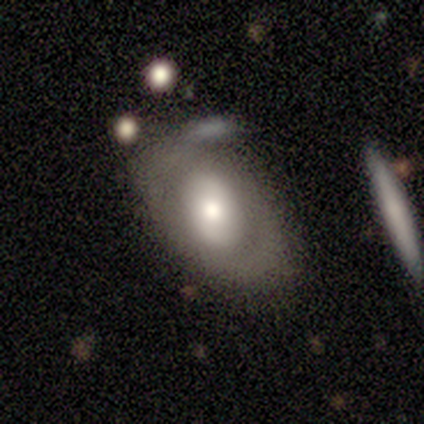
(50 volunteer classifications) A featured or disk galaxy (48%) with no bar (41%), no spiral arms (59%) and a moderate central bulge (45%).

Vote fractions:
- Smooth or featured? featured or disk: 48% / smooth: 46% / star or artifact: 6%
- Edge-on disk? no: 92% / yes: 8%
- Bar? no: 41% / strong: 32% / weak: 27%
- Spiral arms? no: 59% / yes: 41%
- Bulge size? moderate: 45% / large: 36% / small: 14% / dominant: 5% / none: 0%
- Merging? none: 34% / minor disturbance: 30% / major disturbance: 23% / merger: 13%